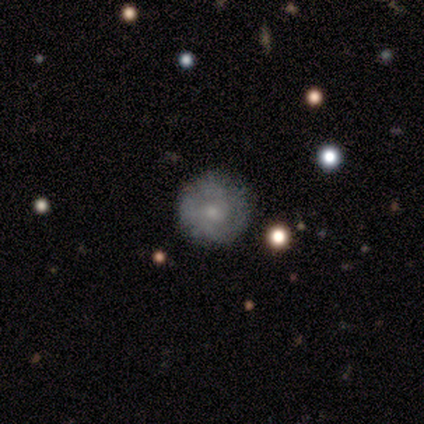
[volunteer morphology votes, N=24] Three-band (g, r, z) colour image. It shows a smooth galaxy with no disk features (46%) that is round (100%). Merging: none (85%).